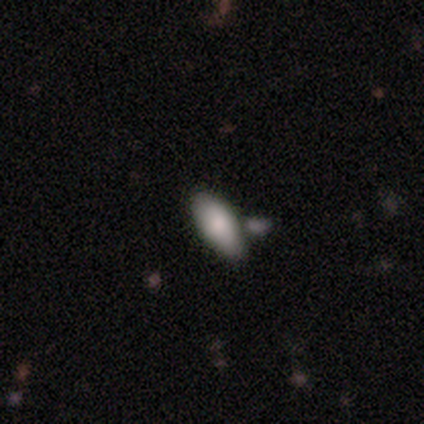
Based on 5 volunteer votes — Overall: smooth (60%; featured or disk 40%). How rounded: in between (100%). Merging: none (80%).